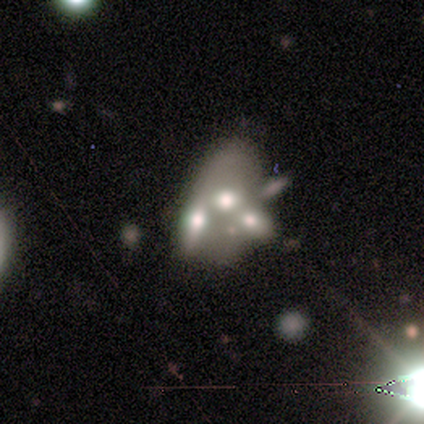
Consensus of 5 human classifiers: smooth-or-featured: featured or disk: 60% | star or artifact: 40% | smooth: 0%
  disk-edge-on: no: 100% | yes: 0%
    bar: no: 100% | strong: 0% | weak: 0%
    has-spiral-arms: no: 100% | yes: 0%
    bulge-size: large: 33% (tied) | moderate: 33% (tied) | none: 33% (tied) | dominant: 0% | small: 0%
  merging: none: 33% (tied) | minor disturbance: 33% (tied) | major disturbance: 33% (tied) | merger: 0%